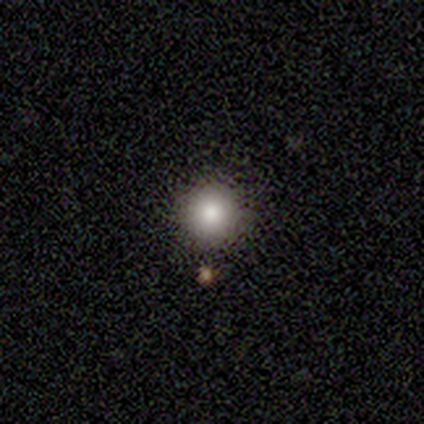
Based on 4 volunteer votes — Smooth or featured?
  - smooth: 100% *
  - featured or disk: 0%
  - star or artifact: 0%
How rounded?
  - round: 100% *
  - in between: 0%
  - cigar-shaped: 0%
Merging?
  - none: 100% *
  - minor disturbance: 0%
  - major disturbance: 0%
  - merger: 0%